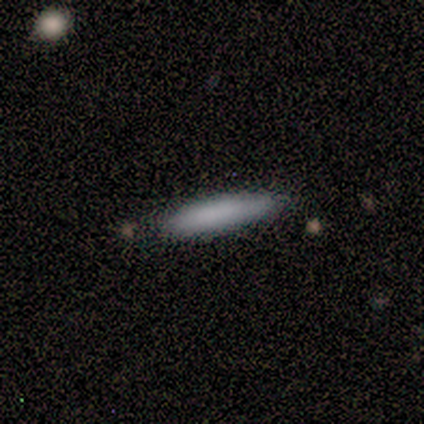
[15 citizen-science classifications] Smooth or featured? smooth (73%)
How rounded? cigar-shaped (82%)
Merging? none (86%)